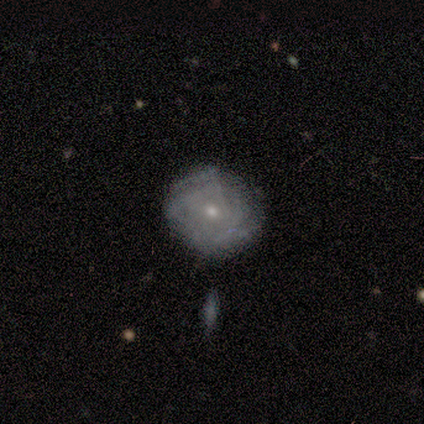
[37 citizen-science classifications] smooth_or_featured: featured or disk (p=0.70) [alt: smooth p=0.24]
disk_edge_on: no (p=1.00)
bar: no (p=0.88) [alt: weak p=0.12]
has_spiral_arms: yes (p=0.73) [alt: no p=0.27]
spiral_winding: tight (p=0.63) [alt: medium p=0.32]
spiral_arm_count: can't tell (p=0.63) [alt: 3 p=0.16]
bulge_size: small (p=0.77) [alt: moderate p=0.23]
merging: none (p=0.77) [alt: minor disturbance p=0.20]